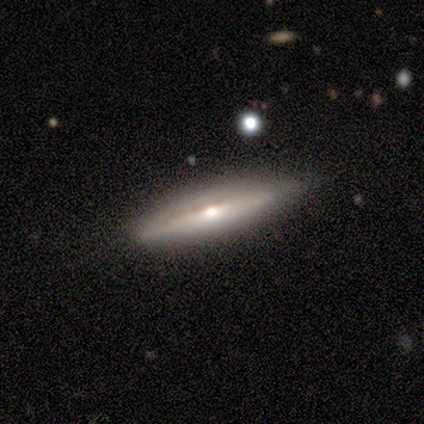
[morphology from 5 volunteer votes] smooth_or_featured: featured or disk (p=0.80) [alt: smooth p=0.20]
disk_edge_on: no (p=0.75) [alt: yes p=0.25]
bar: no (p=1.00)
has_spiral_arms: no (p=1.00)
bulge_size: moderate (p=1.00)
merging: none (p=0.80) [alt: minor disturbance p=0.20]